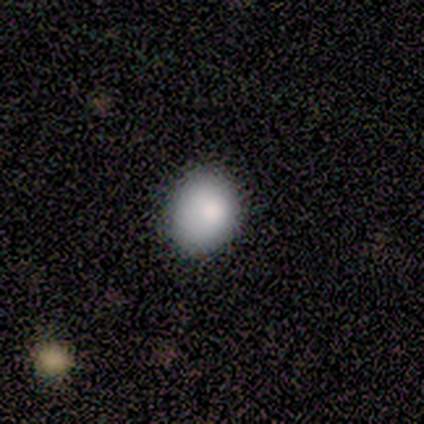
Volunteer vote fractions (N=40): Smooth or featured?
  - smooth: 85% *
  - featured or disk: 10%
  - star or artifact: 5%
How rounded?
  - round: 68% *
  - in between: 32%
  - cigar-shaped: 0%
Merging?
  - none: 61% *
  - minor disturbance: 21%
  - major disturbance: 3%
  - merger: 0%